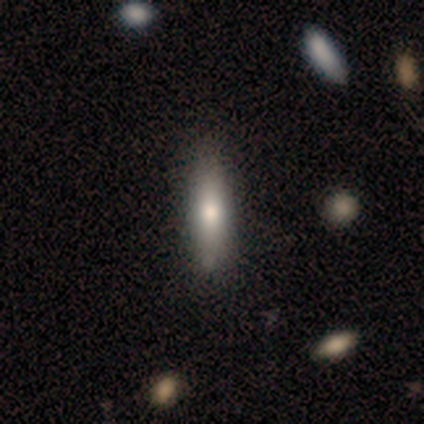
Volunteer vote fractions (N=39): Smooth or featured? smooth (77%)
How rounded? cigar-shaped (63%)
Merging? none (78%)